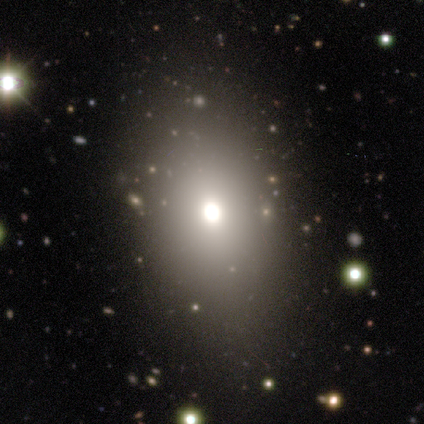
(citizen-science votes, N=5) Smooth or featured? 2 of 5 (40%, tied with featured or disk) said smooth. How rounded? 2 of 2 (100%) said in between. Merging? 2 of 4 (50%) said none.